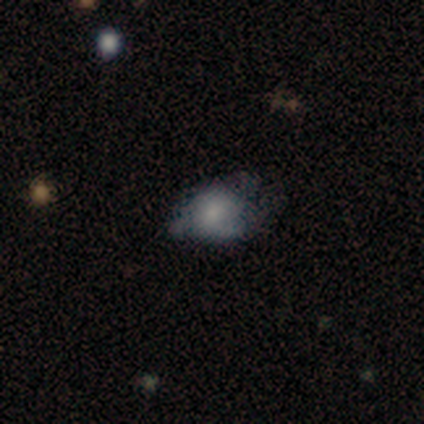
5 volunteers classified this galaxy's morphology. smooth_or_featured: featured or disk (p=0.60) [alt: smooth p=0.20]
disk_edge_on: no (p=1.00)
bar: no (p=0.67) [alt: weak p=0.33]
has_spiral_arms: yes (p=1.00)
spiral_winding: loose (p=0.67) [alt: medium p=0.33]
spiral_arm_count: 2 (p=0.33) [tied with: 3 p=0.33, can't tell p=0.33]
bulge_size: small (p=0.67) [alt: large p=0.33]
merging: none (p=0.75) [alt: major disturbance p=0.25]